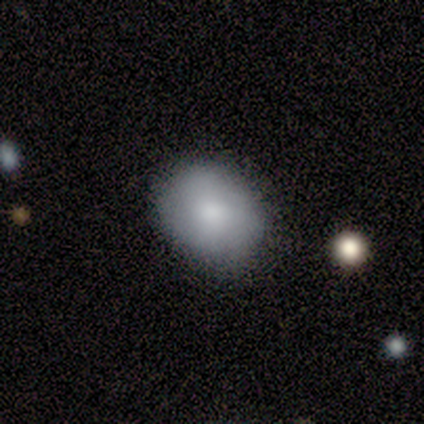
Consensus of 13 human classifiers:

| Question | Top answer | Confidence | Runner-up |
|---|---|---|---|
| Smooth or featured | smooth | 85% | featured or disk (15%) |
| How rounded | round | 64% | in between (36%) |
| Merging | none | 85% | minor disturbance (8%) |